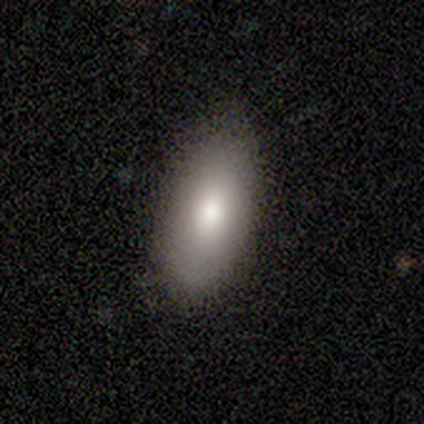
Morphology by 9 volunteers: smooth 78%, featured or disk 22%, star or artifact 0%. Down the decision tree: how rounded — in between (86%); merging — none (89%).